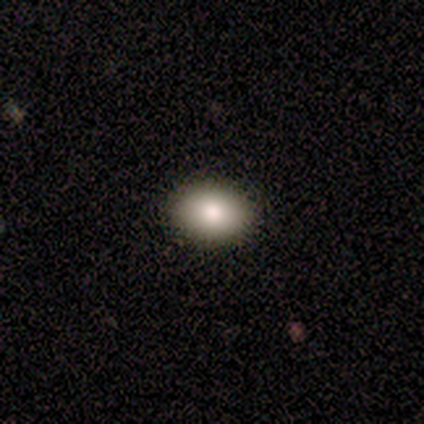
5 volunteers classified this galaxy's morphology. Smooth or featured?
  - smooth: 100% *
  - featured or disk: 0%
  - star or artifact: 0%
How rounded?
  - in between: 100% *
  - round: 0%
  - cigar-shaped: 0%
Merging?
  - none: 80% *
  - minor disturbance: 20%
  - major disturbance: 0%
  - merger: 0%